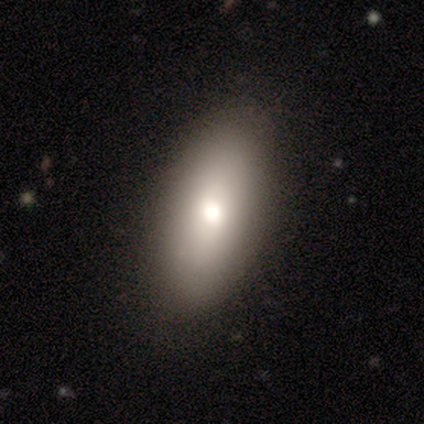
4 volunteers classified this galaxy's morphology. type=smooth (50%, tied with featured or disk); roundness=in between (100%); merging=none (100%).